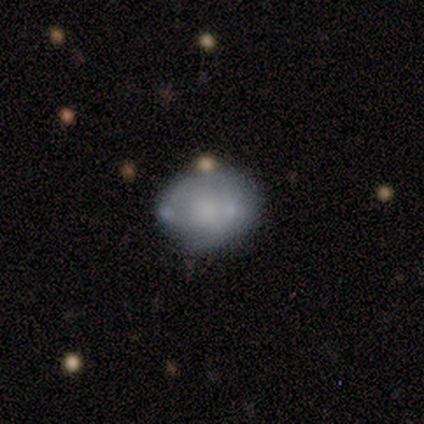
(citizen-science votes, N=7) Volunteers were most divided on "merging": none: 43%, minor disturbance: 29%, major disturbance: 14%, merger: 14%. More confident: smooth or featured — smooth (86%); how rounded — round (67%).